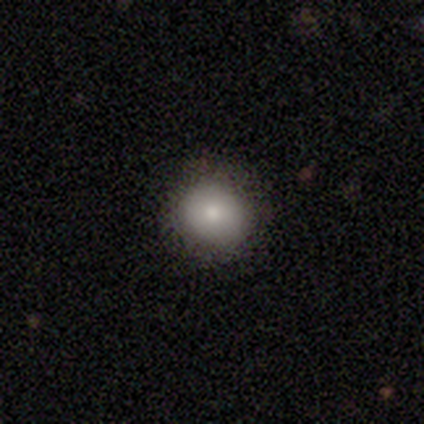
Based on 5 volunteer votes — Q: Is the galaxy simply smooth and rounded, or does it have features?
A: smooth — 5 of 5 (100%).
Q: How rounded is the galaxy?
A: round — 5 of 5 (100%).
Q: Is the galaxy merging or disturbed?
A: none — 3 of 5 (60%).